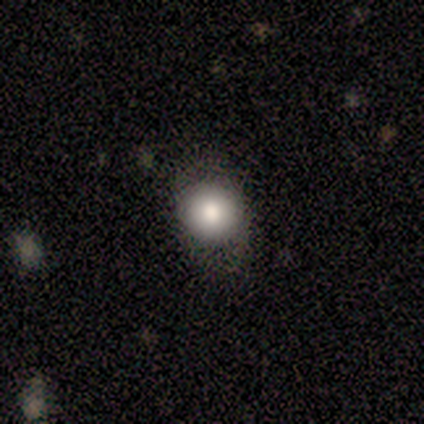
Smooth or featured: smooth — 100%
How rounded: round — 80% (in between — 20%)
Merging: none — 100%